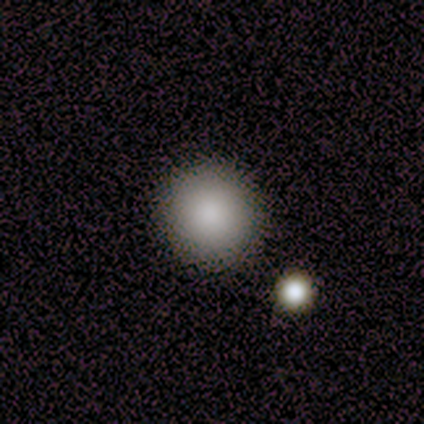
A smooth galaxy with no disk features (83%) that is round (100%).

Vote fractions:
- Smooth or featured? smooth: 83% / featured or disk: 8% / star or artifact: 8%
- How rounded? round: 100% / in between: 0% / cigar-shaped: 0%
- Merging? none: 82% / minor disturbance: 18% / major disturbance: 0% / merger: 0%